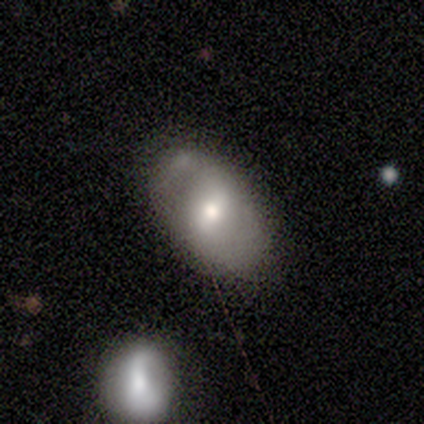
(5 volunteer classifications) Smooth or featured? featured or disk (60%)
Edge-on disk? no (100%)
Bar? strong (67%)
Spiral arms? yes (67%)
Spiral winding? tight (50%, tied with medium)
Spiral arm count? 2 (100%)
Bulge size? large (33%, tied with moderate and small)
Merging? minor disturbance (40%)